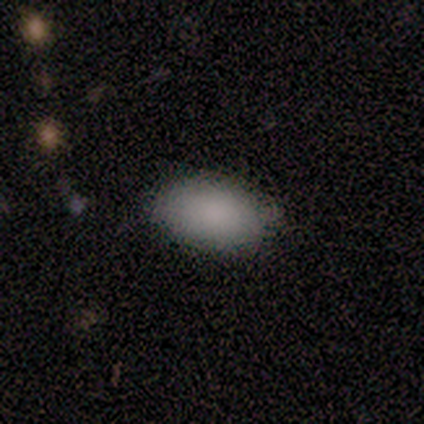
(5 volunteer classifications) This is clearly a smooth galaxy (100%). How rounded: clearly in between (100%). Merging: clearly none (100%).